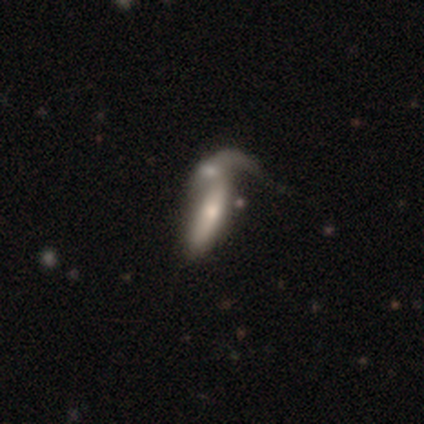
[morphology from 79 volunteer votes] featured or disk 53%, smooth 44%, star or artifact 3%. Down the decision tree: edge-on disk — no (60%); bar — no (48%); spiral arms — no (68%); bulge size — moderate (44%); merging — merger (39%).